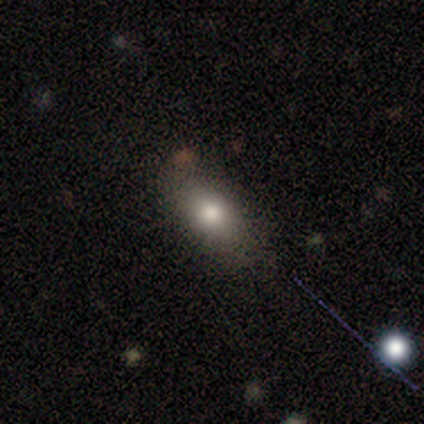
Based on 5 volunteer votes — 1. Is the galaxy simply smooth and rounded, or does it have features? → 40% smooth (tied), 40% featured or disk (tied), 20% star or artifact.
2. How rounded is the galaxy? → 100% in between, 0% round, 0% cigar-shaped.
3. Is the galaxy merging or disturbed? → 75% none, 25% minor disturbance, 0% major disturbance, 0% merger.